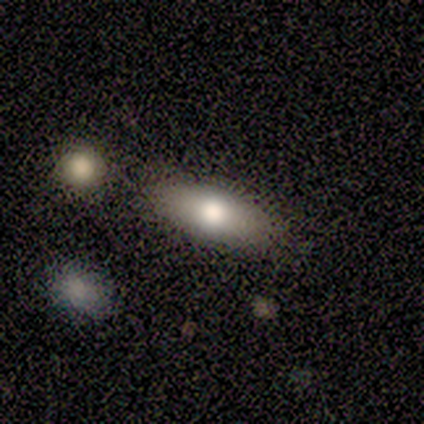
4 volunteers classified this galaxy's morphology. Smooth or featured? smooth (75%)
How rounded? in between (67%)
Merging? none (100%)